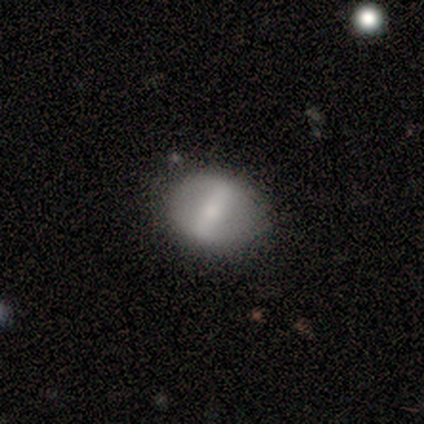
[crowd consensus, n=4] smooth_or_featured: smooth (p=0.50) [alt: featured or disk p=0.25]
how_rounded: round (p=0.50) [tied with: in between p=0.50]
merging: none (p=1.00)